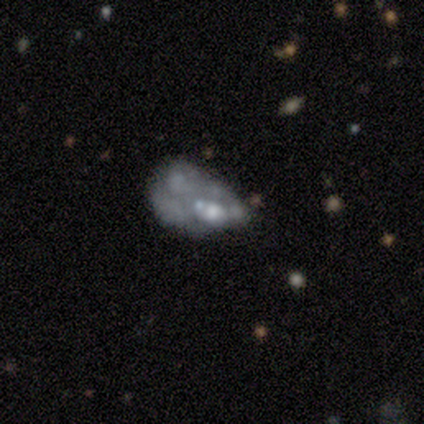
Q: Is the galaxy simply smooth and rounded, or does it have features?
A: featured or disk — 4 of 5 (80%).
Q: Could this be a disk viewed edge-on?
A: no — 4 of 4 (100%).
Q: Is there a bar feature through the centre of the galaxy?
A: no — 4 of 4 (100%).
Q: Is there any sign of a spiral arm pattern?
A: no — 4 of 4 (100%).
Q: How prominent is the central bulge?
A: moderate — 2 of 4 (50%).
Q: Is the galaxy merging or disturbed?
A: minor disturbance — 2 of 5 (40%, tied with merger).